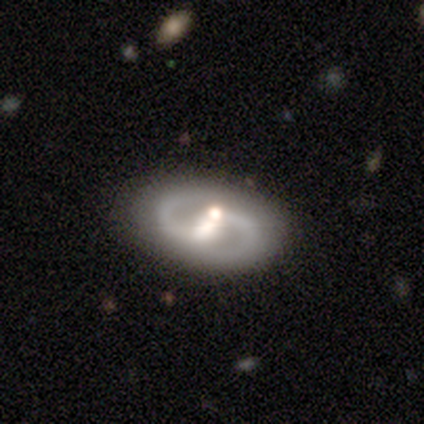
This appears to be a featured or disk galaxy (88%) with a strong bar (48%), 2 (96%) medium (70%) spiral arms (93%) and a moderate central bulge (52%). Merging: none (68%).